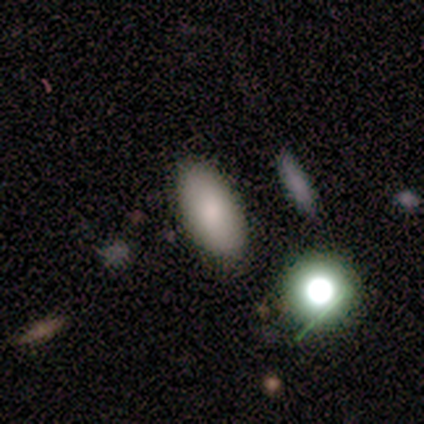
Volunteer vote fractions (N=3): smooth 100%, featured or disk 0%, star or artifact 0%. Down the decision tree: how rounded — in between (100%); merging — none (100%).